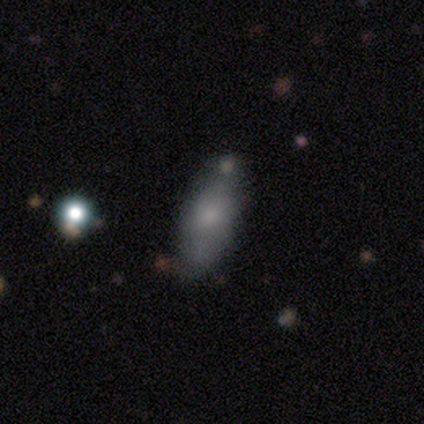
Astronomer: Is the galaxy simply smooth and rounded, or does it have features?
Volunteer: smooth — 75%.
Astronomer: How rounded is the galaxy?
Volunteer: in between — 87%.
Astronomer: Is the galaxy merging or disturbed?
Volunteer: none — 54%.